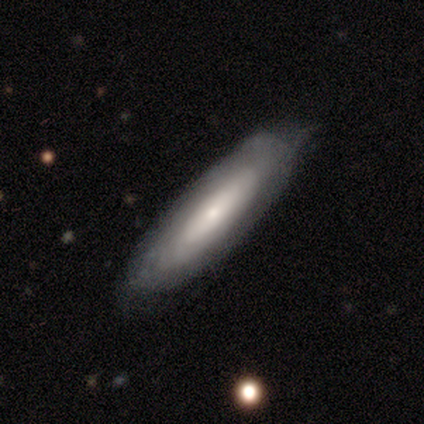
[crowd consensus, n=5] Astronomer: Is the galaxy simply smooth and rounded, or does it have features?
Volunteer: smooth — 60% (runner-up: featured or disk, 40%).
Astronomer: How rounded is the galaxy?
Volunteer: in between — 67%.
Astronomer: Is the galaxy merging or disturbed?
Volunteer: none — 80%.